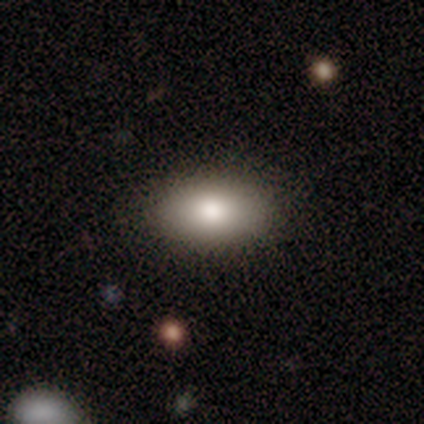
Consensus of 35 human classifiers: Q: Smooth or featured?
A: smooth (69%); runner-up: featured or disk (17%)
Q: How rounded?
A: in between (100%)
Q: Merging?
A: none (93%); runner-up: minor disturbance (7%)